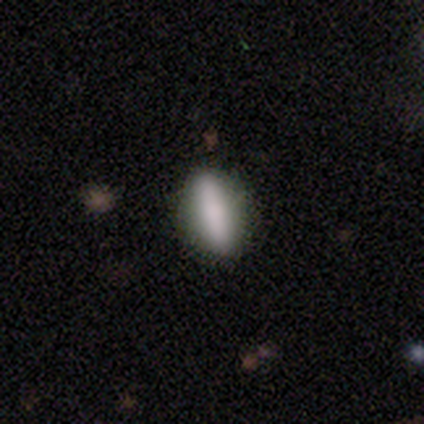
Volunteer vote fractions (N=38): This appears to be a smooth galaxy with no disk features (76%) that is cigar-shaped (52%). Merging: none (89%).